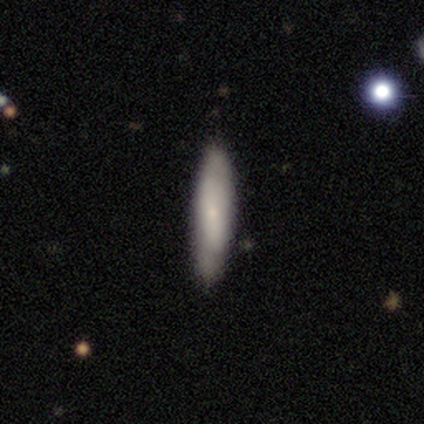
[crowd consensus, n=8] Smooth or featured: smooth — 62% (featured or disk — 25%)
How rounded: cigar-shaped — 80% (in between — 20%)
Merging: none — 86% (minor disturbance — 14%)